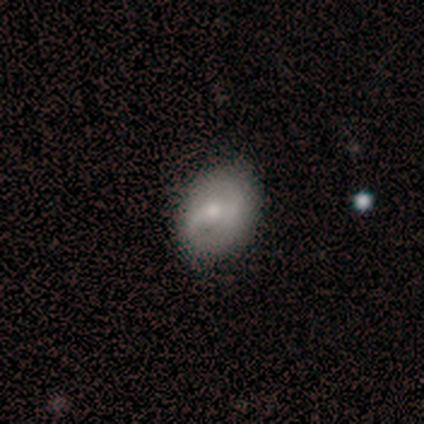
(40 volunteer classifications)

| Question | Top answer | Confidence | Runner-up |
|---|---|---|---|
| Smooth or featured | featured or disk | 52% | smooth (38%) |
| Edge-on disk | no | 100% | — |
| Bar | weak | 48% | tied: no (48%) |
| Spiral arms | yes | 81% | no (19%) |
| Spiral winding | medium | 41% | loose (35%) |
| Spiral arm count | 2 | 76% | 1 (12%) |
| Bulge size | small | 57% | moderate (33%) |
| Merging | none | 47% | merger (6%) |